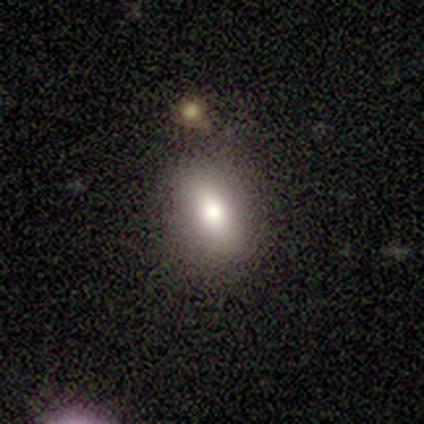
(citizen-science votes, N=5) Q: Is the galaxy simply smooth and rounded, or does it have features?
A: smooth — 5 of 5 (100%).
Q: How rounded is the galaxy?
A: in between — 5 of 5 (100%).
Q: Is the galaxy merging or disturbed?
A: none — 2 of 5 (40%).